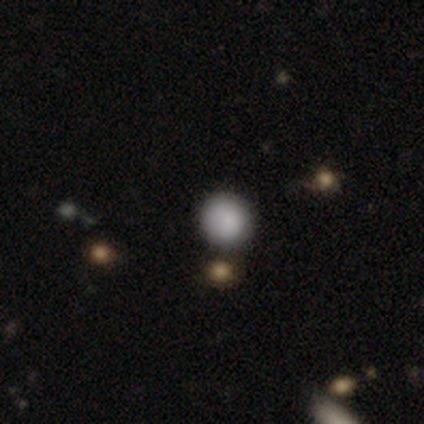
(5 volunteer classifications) Smooth or featured: smooth — 60% (star or artifact — 40%)
How rounded: round — 100%
Merging: none — 100%